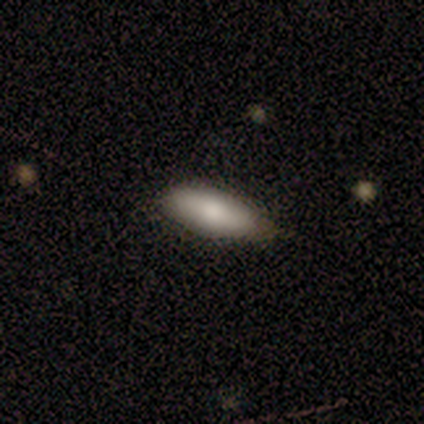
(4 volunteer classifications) A smooth galaxy with no disk features (100%) that is in between round and cigar-shaped (75%). Merging: none (50%, tied with minor disturbance).